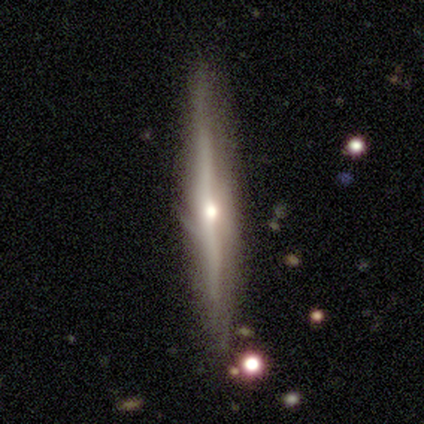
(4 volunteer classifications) Volunteers were most divided on "merging" (2-way tie): none: 50%, minor disturbance: 50%, major disturbance: 0%, merger: 0%. More confident: smooth or featured — featured or disk (100%); edge-on disk — yes (100%); edge-on bulge — rounded (100%).